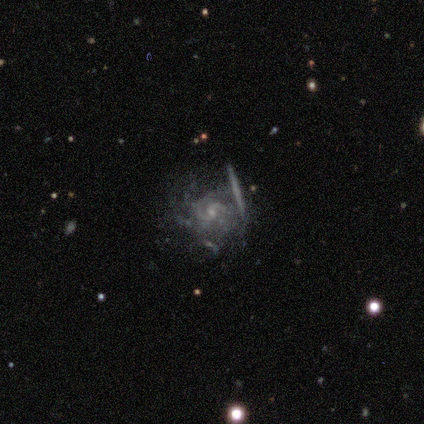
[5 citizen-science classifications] Overall: featured or disk (100%). Edge-on disk: no (100%). Bar: no (60%; strong 20%). Spiral arms: yes (100%). Spiral arm count: 2 (40%, tied with can't tell). Spiral winding: medium (80%). Bulge size: small (80%). Merging: none (80%).